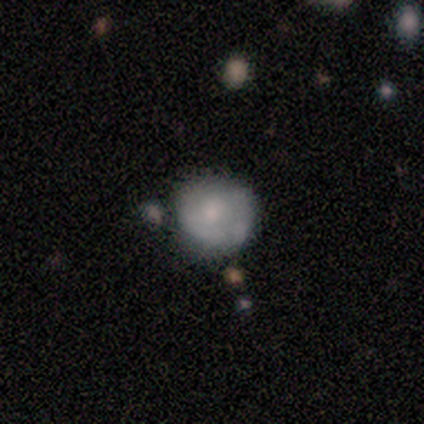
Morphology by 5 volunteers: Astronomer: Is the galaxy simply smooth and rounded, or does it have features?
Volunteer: smooth — 80%.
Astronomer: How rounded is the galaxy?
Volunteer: round — 100%.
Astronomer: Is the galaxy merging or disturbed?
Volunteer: minor disturbance — 80%.